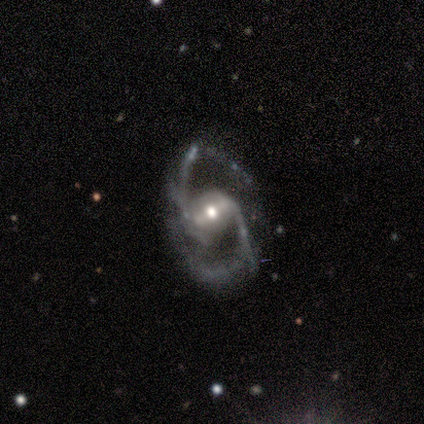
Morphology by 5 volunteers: This appears to be a featured or disk galaxy (100%) with a weak bar (60%), 2 (100%) medium (80%) spiral arms (100%) and a small central bulge (60%). Merging: none (80%).